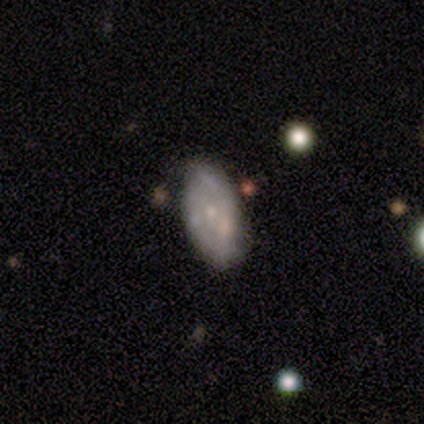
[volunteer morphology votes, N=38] Smooth or featured? featured or disk (55%)
Edge-on disk? no (100%)
Bar? no (95%)
Spiral arms? no (57%)
Bulge size? small (76%)
Merging? none (57%)